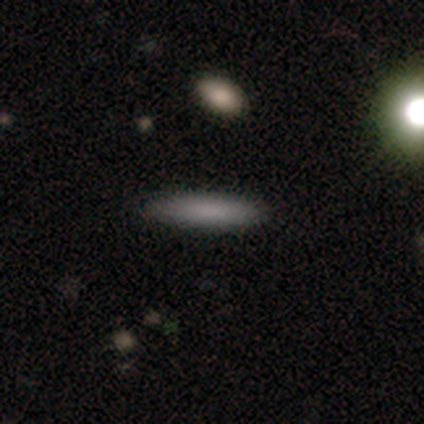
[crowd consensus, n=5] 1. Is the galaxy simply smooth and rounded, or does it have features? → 80% smooth, 20% featured or disk, 0% star or artifact.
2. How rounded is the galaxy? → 75% cigar-shaped, 25% in between, 0% round.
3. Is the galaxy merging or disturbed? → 100% none, 0% minor disturbance, 0% major disturbance, 0% merger.